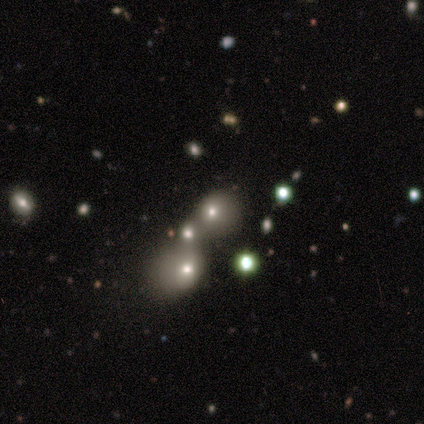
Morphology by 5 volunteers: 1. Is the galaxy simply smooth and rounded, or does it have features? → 80% smooth, 20% star or artifact, 0% featured or disk.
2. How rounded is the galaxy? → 100% round, 0% in between, 0% cigar-shaped.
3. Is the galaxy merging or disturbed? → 25% none (tied), 25% minor disturbance (tied), 25% major disturbance (tied), 25% merger (tied).